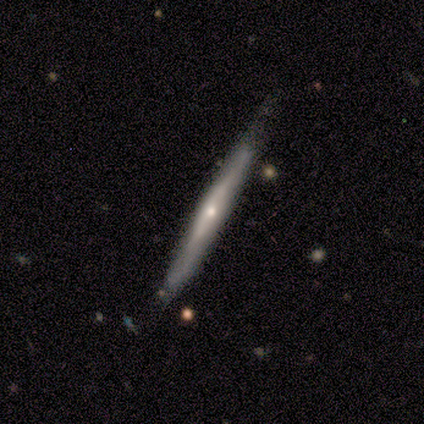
Volunteers were most divided on "merging": none: 75%, minor disturbance: 25%, major disturbance: 0%, merger: 0%. More confident: edge-on disk — yes (100%); smooth or featured — featured or disk (78%); edge-on bulge — rounded (71%).